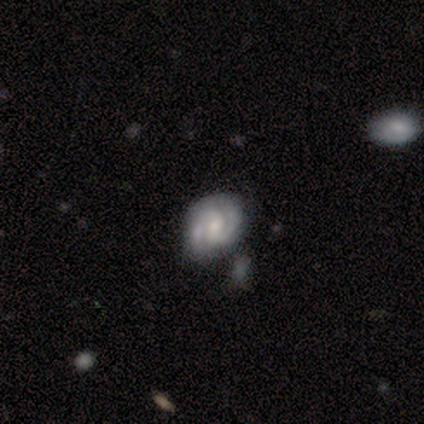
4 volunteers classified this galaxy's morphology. Volunteers were most divided on "bar": no: 50%, strong: 25%, weak: 25%. More confident: smooth or featured — featured or disk (100%); edge-on disk — no (100%); spiral arms — yes (100%); spiral arm count — 2 (100%); spiral winding — tight (75%); bulge size — small (50%); merging — none (50%).